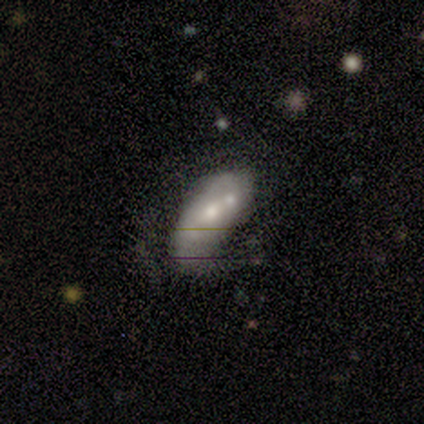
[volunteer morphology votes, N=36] Overall: featured or disk (61%; smooth 33%). Edge-on disk: no (86%). Bar: no (74%). Spiral arms: no (89%). Bulge size: moderate (53%; small 26%). Merging: merger (44%; none 24%).